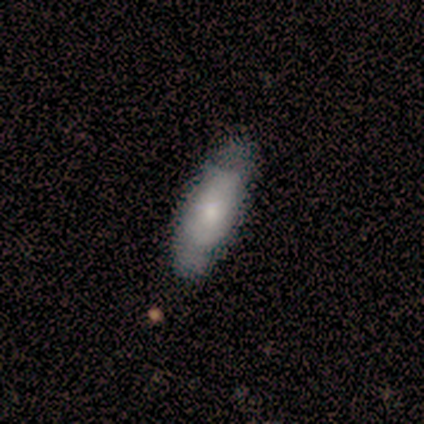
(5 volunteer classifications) This appears to be a smooth galaxy with no disk features (80%) that is in between round and cigar-shaped (50%, tied with cigar-shaped). Merging: none (80%).